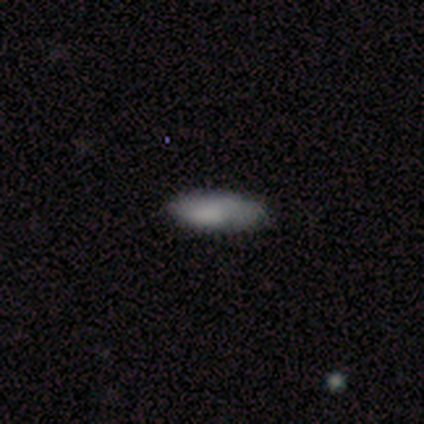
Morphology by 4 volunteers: This appears to be a smooth galaxy with no disk features (75%) that is in between round and cigar-shaped (100%). Merging: none (67%).